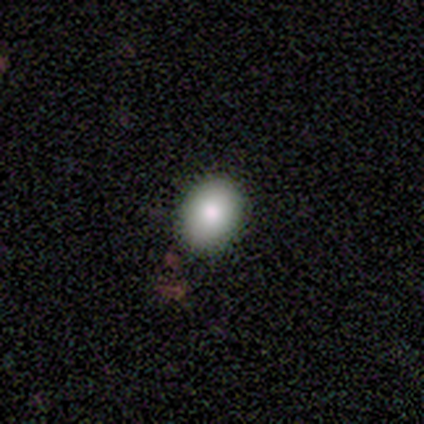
A smooth galaxy with no disk features (100%) that is in between round and cigar-shaped (60%).

Vote fractions:
- Smooth or featured? smooth: 100% / featured or disk: 0% / star or artifact: 0%
- How rounded? in between: 60% / round: 40% / cigar-shaped: 0%
- Merging? none: 100% / minor disturbance: 0% / major disturbance: 0% / merger: 0%